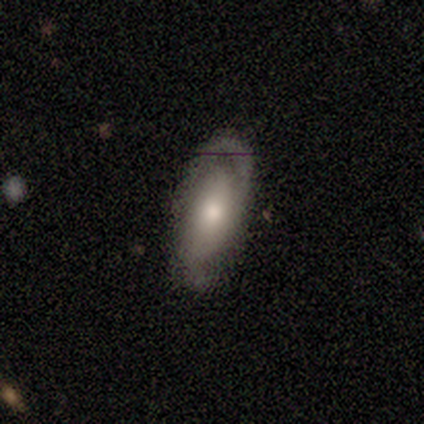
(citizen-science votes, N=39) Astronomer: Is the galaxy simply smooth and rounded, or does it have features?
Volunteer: featured or disk — 64%.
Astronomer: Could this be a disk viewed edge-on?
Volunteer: no — 88%.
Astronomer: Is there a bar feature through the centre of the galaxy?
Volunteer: no — 64%.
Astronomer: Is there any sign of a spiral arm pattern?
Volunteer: yes — 82%.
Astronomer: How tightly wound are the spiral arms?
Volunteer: tight — 39% (runner-up: medium, 33%).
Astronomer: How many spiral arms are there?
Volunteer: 2 — 83%.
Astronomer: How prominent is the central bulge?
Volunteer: moderate — 55% (runner-up: small, 36%).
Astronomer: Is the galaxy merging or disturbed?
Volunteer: none — 71%.